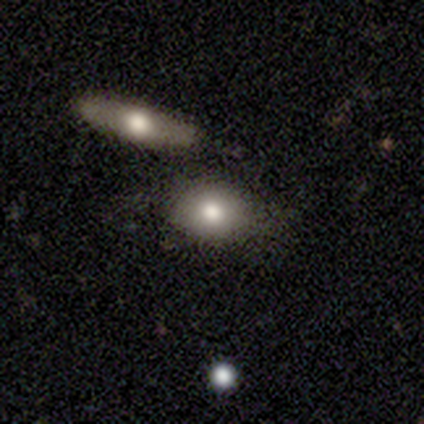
Smooth or featured? featured or disk (40%, tied with star or artifact)
Edge-on disk? no (100%)
Bar? no (100%)
Spiral arms? no (100%)
Bulge size? moderate (100%)
Merging? none (100%)